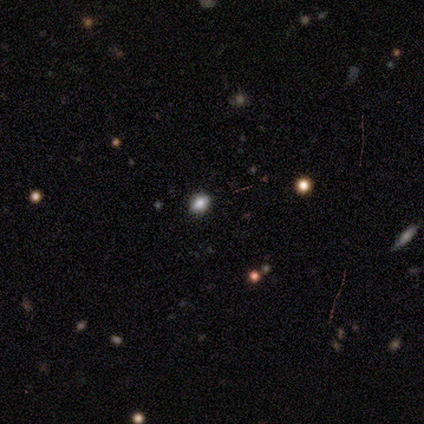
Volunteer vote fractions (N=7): Volunteers were most divided on "smooth or featured": smooth: 43%, featured or disk: 29%, star or artifact: 29%. More confident: merging — none (100%); how rounded — round (67%).